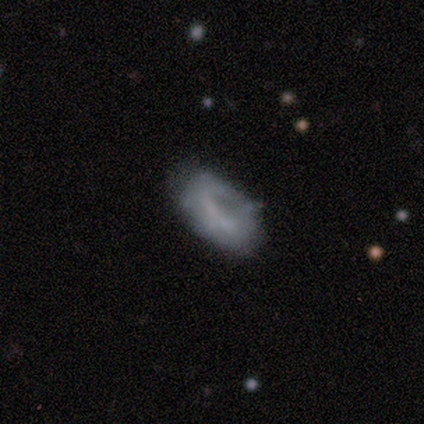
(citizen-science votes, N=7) A smooth galaxy with no disk features (86%) that is in between round and cigar-shaped (100%).

Vote fractions:
- Smooth or featured? smooth: 86% / featured or disk: 14% / star or artifact: 0%
- How rounded? in between: 100% / round: 0% / cigar-shaped: 0%
- Merging? none: 71% / minor disturbance: 14% / major disturbance: 14% / merger: 0%